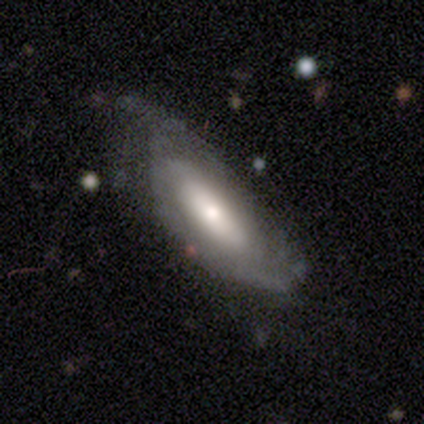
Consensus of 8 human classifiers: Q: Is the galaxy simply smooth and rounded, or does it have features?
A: featured or disk — 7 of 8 (88%).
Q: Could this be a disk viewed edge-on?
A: no — 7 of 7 (100%).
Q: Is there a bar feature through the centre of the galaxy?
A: no — 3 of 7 (43%).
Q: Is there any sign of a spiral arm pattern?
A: yes — 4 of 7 (57%).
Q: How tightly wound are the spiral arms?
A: tight — 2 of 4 (50%, tied with medium).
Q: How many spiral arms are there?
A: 2 — 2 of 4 (50%).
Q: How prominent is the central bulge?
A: moderate — 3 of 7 (43%).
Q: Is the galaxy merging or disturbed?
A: none — 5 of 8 (62%).